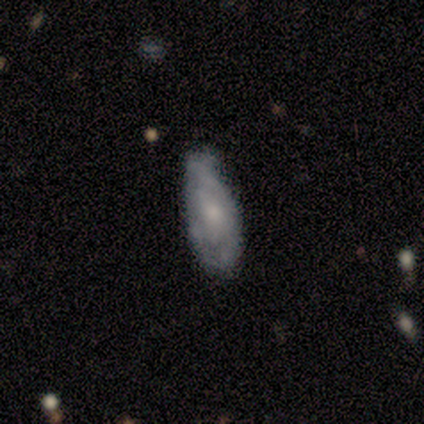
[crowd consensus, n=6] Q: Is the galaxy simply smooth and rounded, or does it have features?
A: smooth — 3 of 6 (50%, tied with featured or disk).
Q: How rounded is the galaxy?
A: in between — 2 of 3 (67%).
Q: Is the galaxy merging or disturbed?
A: none — 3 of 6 (50%, tied with minor disturbance).